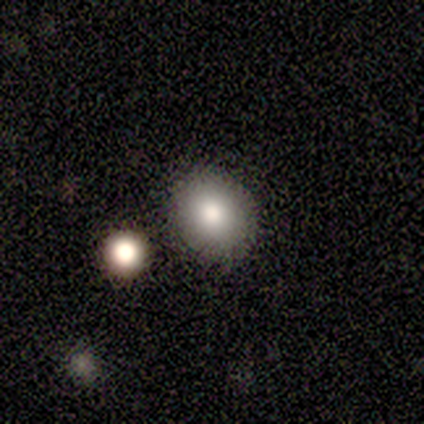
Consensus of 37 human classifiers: Volunteers were most divided on "how rounded": round: 71%, in between: 29%, cigar-shaped: 0%. More confident: merging — none (81%); smooth or featured — smooth (76%).